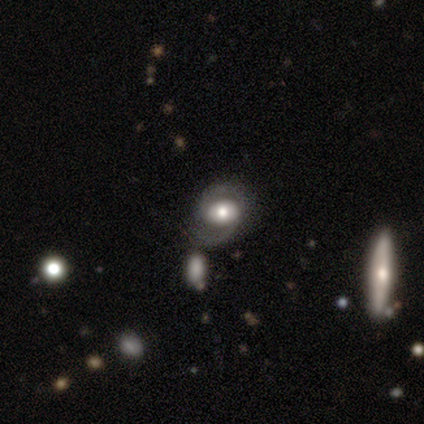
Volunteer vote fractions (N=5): Smooth or featured: featured or disk — 60% (star or artifact — 40%)
Edge-on disk: no — 67% (yes — 33%)
Bar: strong — 50% (tied with weak — 50%)
Spiral arms: yes — 100%
Spiral winding: tight — 50% (tied with medium — 50%)
Spiral arm count: 2 — 100%
Bulge size: moderate — 100%
Merging: none — 67% (minor disturbance — 33%)